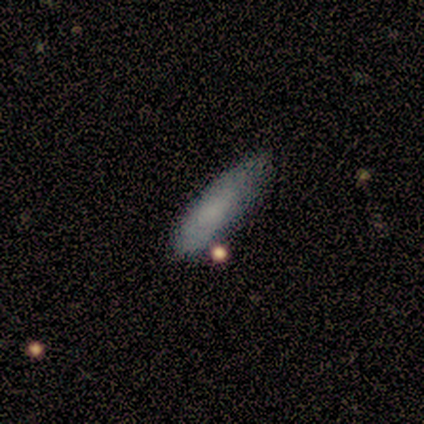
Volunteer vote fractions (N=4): smooth 75%, featured or disk 25%, star or artifact 0%. Down the decision tree: how rounded — cigar-shaped (67%); merging — minor disturbance (50%).